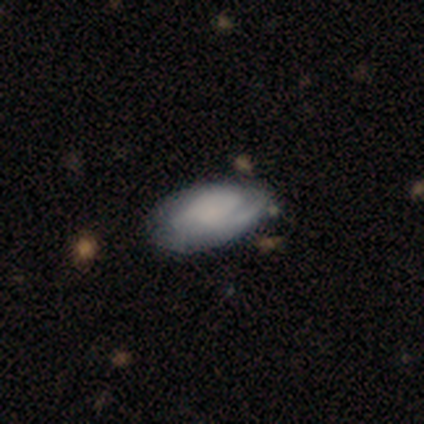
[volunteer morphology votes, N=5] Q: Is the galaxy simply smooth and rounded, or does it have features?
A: smooth — 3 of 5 (60%).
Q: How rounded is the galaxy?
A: in between — 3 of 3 (100%).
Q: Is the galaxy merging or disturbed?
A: none — 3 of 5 (60%).